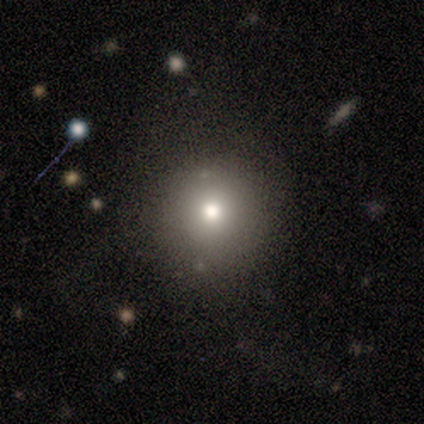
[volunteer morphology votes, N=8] Q: Smooth or featured?
A: star or artifact (62%); runner-up: smooth (25%)